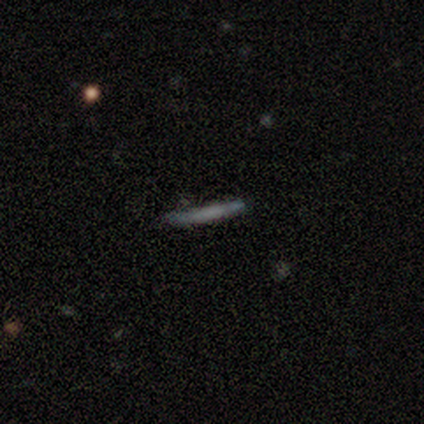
A smooth galaxy with no disk features (62%) that is cigar-shaped (100%). Merging: none (77%).